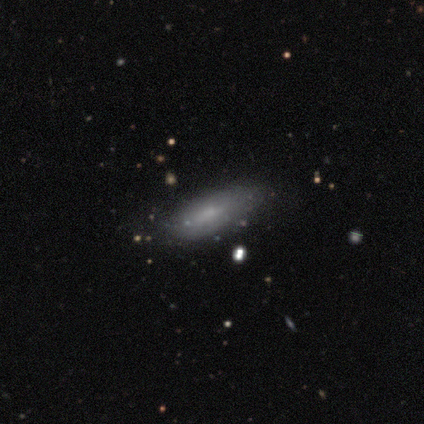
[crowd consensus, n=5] Overall: featured or disk (80%). Edge-on disk: yes (75%). Edge-on bulge: none (67%; rounded 33%). Merging: minor disturbance (80%).